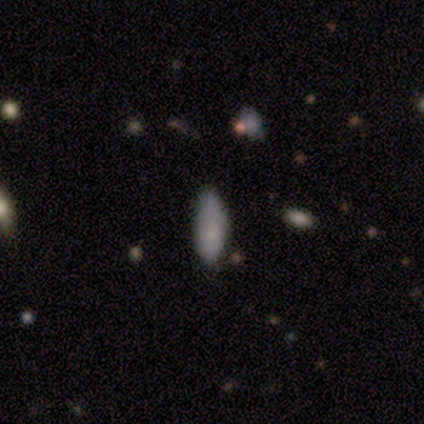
smooth_or_featured: smooth (p=0.80) [alt: featured or disk p=0.20]
how_rounded: in between (p=0.50) [tied with: cigar-shaped p=0.50]
merging: none (p=0.60) [alt: minor disturbance p=0.40]